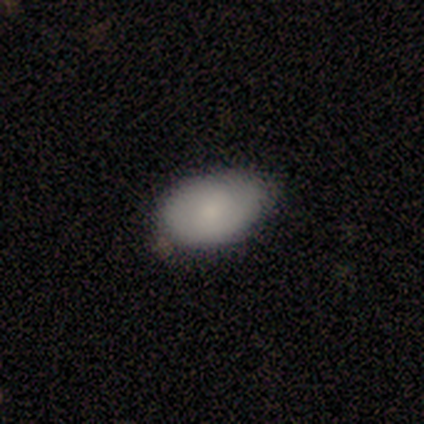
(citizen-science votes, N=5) smooth-or-featured: smooth: 80% | featured or disk: 20% | star or artifact: 0%
  how-rounded: in between: 100% | round: 0% | cigar-shaped: 0%
  merging: none: 80% | minor disturbance: 20% | major disturbance: 0% | merger: 0%